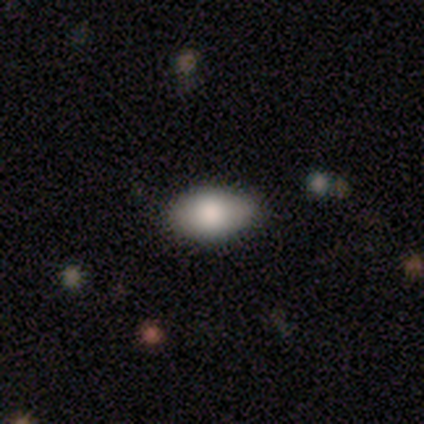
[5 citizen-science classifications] This appears to be a smooth galaxy with no disk features (100%) that is in between round and cigar-shaped (100%). Merging: none (100%).